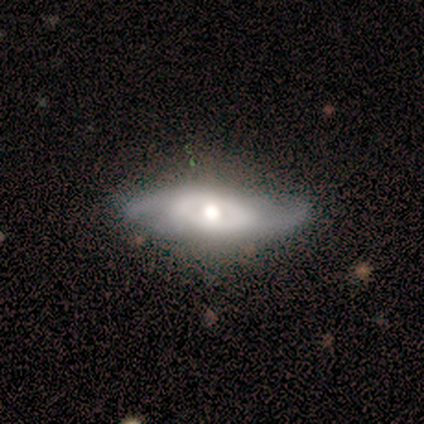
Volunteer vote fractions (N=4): smooth_or_featured: featured or disk (p=1.00)
disk_edge_on: no (p=0.75) [alt: yes p=0.25]
bar: no (p=0.67) [alt: strong p=0.33]
has_spiral_arms: yes (p=0.67) [alt: no p=0.33]
spiral_winding: tight (p=0.50) [tied with: medium p=0.50]
spiral_arm_count: 2 (p=1.00)
bulge_size: moderate (p=1.00)
merging: none (p=0.75) [alt: minor disturbance p=0.25]